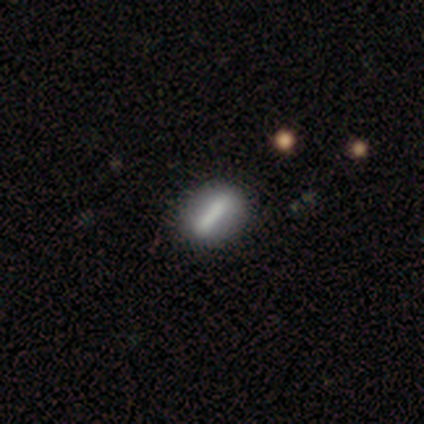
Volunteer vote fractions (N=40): Smooth or featured?
  - featured or disk: 50% *
  - smooth: 45%
  - star or artifact: 5%
Edge-on disk?
  - no: 80% *
  - yes: 20%
Bar?
  - strong: 100% *
  - weak: 0%
  - no: 0%
Spiral arms?
  - no: 88% *
  - yes: 12%
Bulge size?
  - none: 94% *
  - large: 6%
  - dominant: 0%
  - moderate: 0%
  - small: 0%
Merging?
  - none: 66% *
  - minor disturbance: 5%
  - major disturbance: 0%
  - merger: 0%